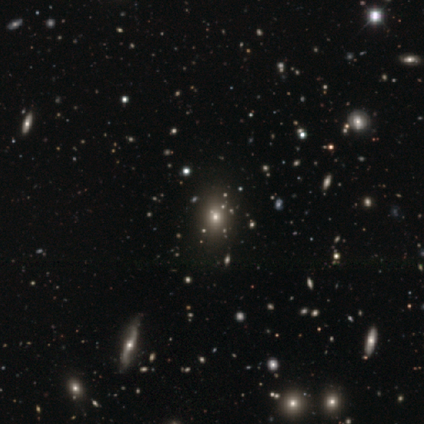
Smooth or featured: smooth — 40% (tied with star or artifact — 40%)
How rounded: in between — 50% (tied with cigar-shaped — 50%)
Merging: none — 67% (merger — 33%)